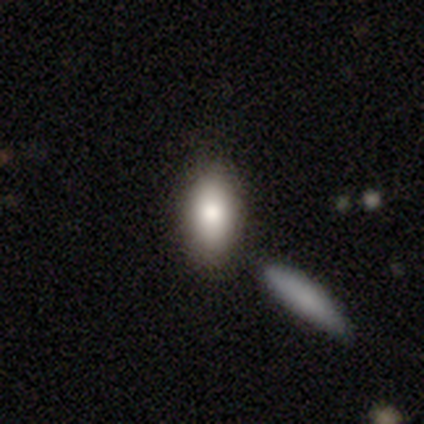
Morphology: type=smooth (84%); roundness=in between (88%); merging=none (77%).